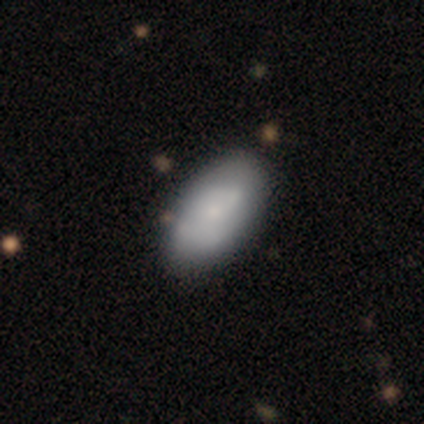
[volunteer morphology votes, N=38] smooth 58%, featured or disk 39%, star or artifact 3%. Down the decision tree: how rounded — in between (95%); merging — none (46%).